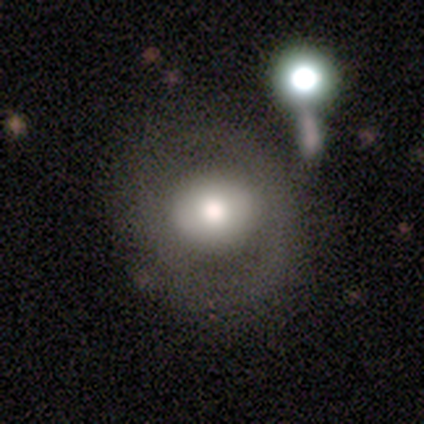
Smooth or featured? 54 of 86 (63%) said smooth. How rounded? 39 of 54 (72%) said round. Merging? 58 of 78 (74%) said none.